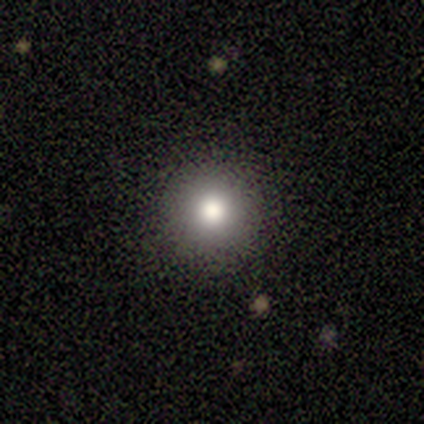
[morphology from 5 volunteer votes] A smooth galaxy with no disk features (60%) that is round (100%). Merging: none (100%).